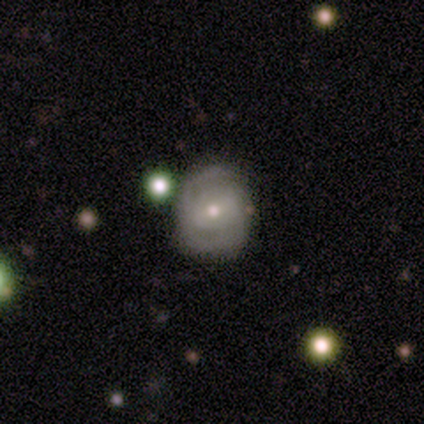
Smooth or featured? featured or disk (70%)
Edge-on disk? no (100%)
Bar? no (54%)
Spiral arms? yes (85%)
Spiral winding? tight (68%)
Spiral arm count? 2 (68%)
Bulge size? moderate (50%, tied with small)
Merging? none (80%)